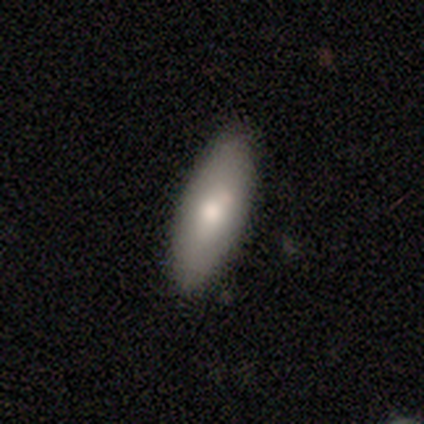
smooth-or-featured: smooth: 80% | featured or disk: 20% | star or artifact: 0%
  how-rounded: in between: 100% | round: 0% | cigar-shaped: 0%
  merging: none: 60% | minor disturbance: 40% | major disturbance: 0% | merger: 0%